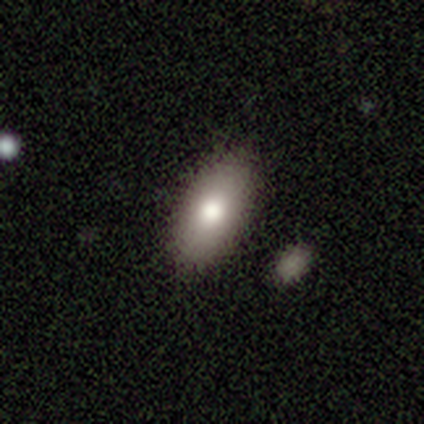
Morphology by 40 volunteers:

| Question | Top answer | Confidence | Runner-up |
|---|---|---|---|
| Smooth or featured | smooth | 78% | featured or disk (12%) |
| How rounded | in between | 84% | cigar-shaped (13%) |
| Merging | none | 94% | merger (6%) |